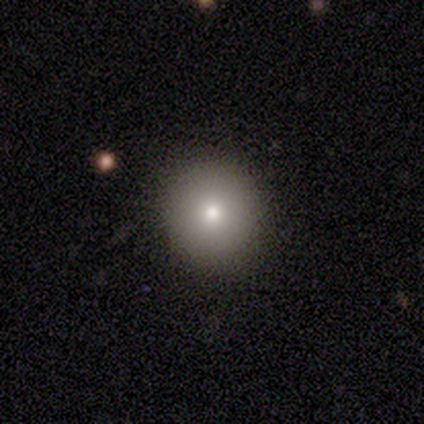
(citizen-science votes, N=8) smooth 88%, featured or disk 12%, star or artifact 0%. Down the decision tree: how rounded — round (100%); merging — none (88%).